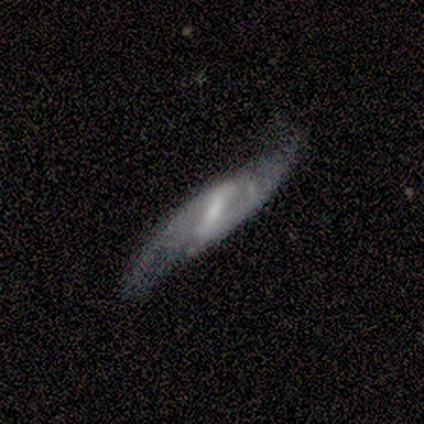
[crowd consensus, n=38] Q: Smooth or featured?
A: featured or disk (87%); runner-up: star or artifact (11%)
Q: Edge-on disk?
A: no (70%); runner-up: yes (30%)
Q: Bar?
A: strong (43%); runner-up: weak (39%)
Q: Spiral arms?
A: yes (74%); runner-up: no (26%)
Q: Spiral winding?
A: loose (76%); runner-up: medium (24%)
Q: Spiral arm count?
A: 2 (94%); runner-up: can't tell (6%)
Q: Bulge size?
A: small (52%); runner-up: moderate (22%)
Q: Merging?
A: none (68%); runner-up: major disturbance (18%)